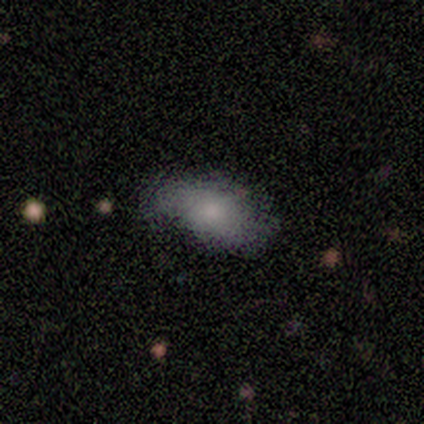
Smooth or featured: smooth — 83% (featured or disk — 17%)
How rounded: in between — 100%
Merging: minor disturbance — 50% (none — 33%)